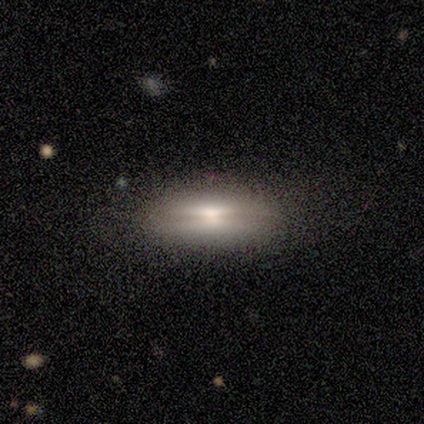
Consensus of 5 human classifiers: A smooth galaxy with no disk features (60%) that is in between round and cigar-shaped (100%). Merging: none (60%).